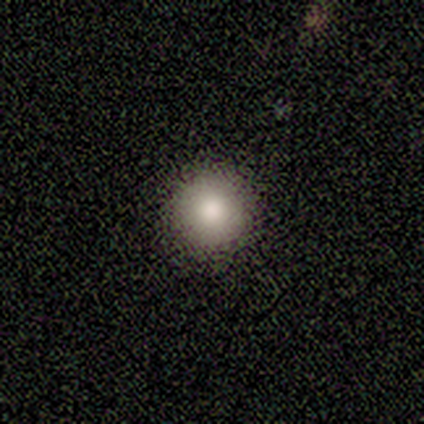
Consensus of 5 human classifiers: Morphology: type=smooth (100%); roundness=round (100%); merging=none (100%).